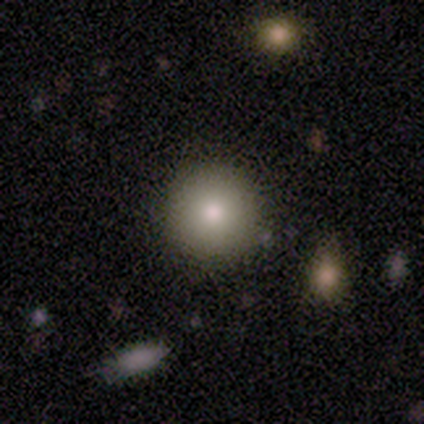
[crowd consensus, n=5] A smooth galaxy with no disk features (80%) that is round (100%). Merging: none (80%).